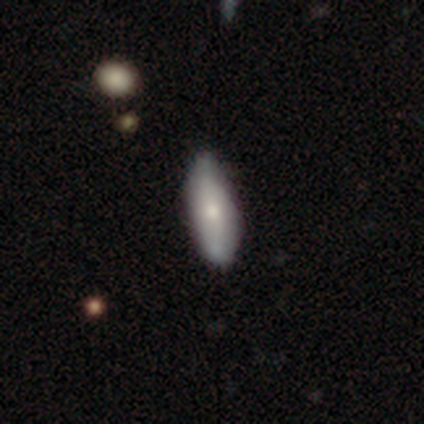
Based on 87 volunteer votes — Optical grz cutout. It shows a smooth galaxy with no disk features (70%) that is in between round and cigar-shaped (56%). Merging: none (71%).